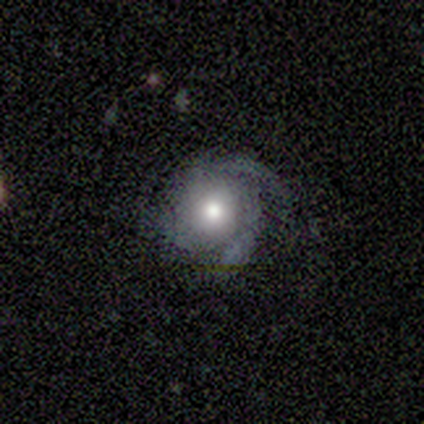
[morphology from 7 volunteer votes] featured or disk 71%, smooth 14%, star or artifact 14%. Down the decision tree: edge-on disk — no (100%); bar — no (80%); spiral arms — yes (100%); spiral arm count — 2 (60%); spiral winding — medium (80%); bulge size — moderate (80%); merging — none (50%).